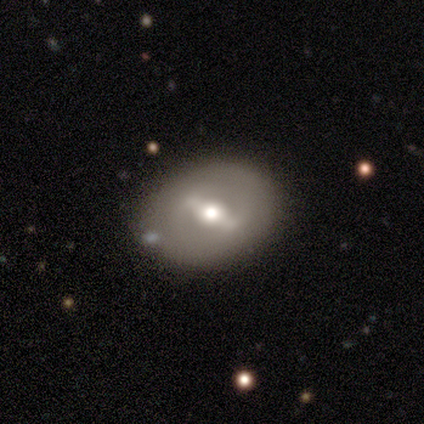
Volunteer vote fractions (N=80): Overall: featured or disk (68%; smooth 31%). Edge-on disk: no (93%). Bar: strong (72%). Spiral arms: no (72%). Bulge size: moderate (72%). Merging: none (39%; minor disturbance 6%).